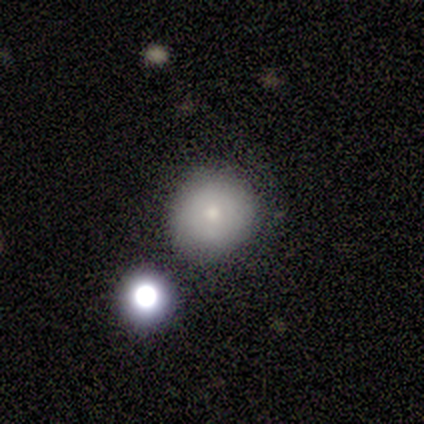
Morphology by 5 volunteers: smooth 60%, featured or disk 20%, star or artifact 20%. Down the decision tree: how rounded — round (100%); merging — none (75%).